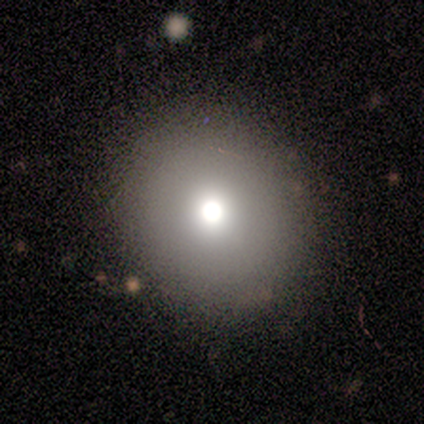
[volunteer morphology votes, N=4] Smooth or featured? 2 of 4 (50%, tied with featured or disk) said smooth. How rounded? 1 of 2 (50%, tied with in between) said round. Merging? 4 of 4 (100%) said none.